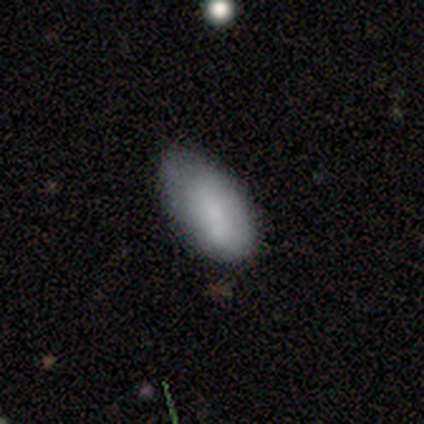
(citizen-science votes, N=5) smooth_or_featured: smooth (p=0.80) [alt: star or artifact p=0.20]
how_rounded: in between (p=1.00)
merging: minor disturbance (p=1.00)